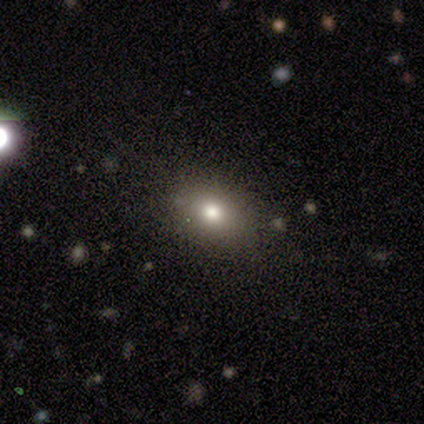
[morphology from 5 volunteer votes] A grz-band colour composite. It shows a smooth galaxy with no disk features (60%) that is in between round and cigar-shaped (67%). Merging: none (67%).